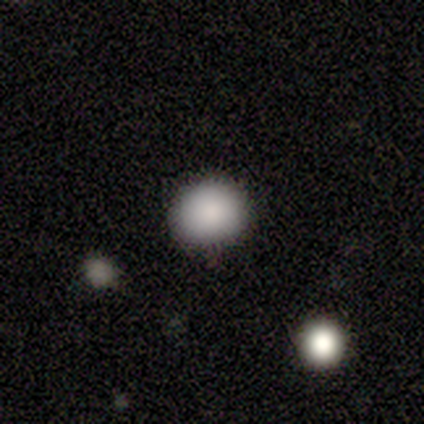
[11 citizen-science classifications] This is clearly a smooth galaxy (82%). How rounded: clearly round (89%). Merging: clearly none (80%).